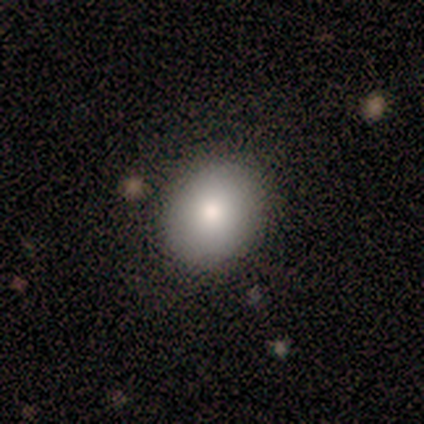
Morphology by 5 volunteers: smooth 80%, featured or disk 20%, star or artifact 0%. Down the decision tree: how rounded — round (100%); merging — none (80%).